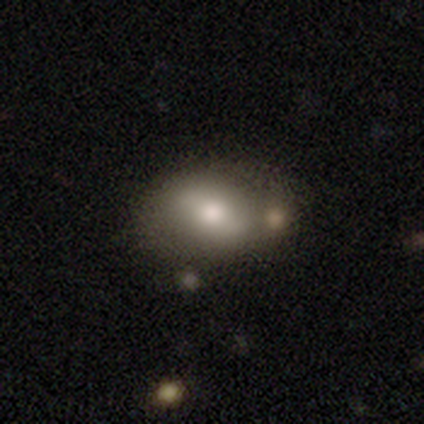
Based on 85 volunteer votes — This appears to be a smooth galaxy with no disk features (53%) that is in between round and cigar-shaped (87%). Merging: none (41%).